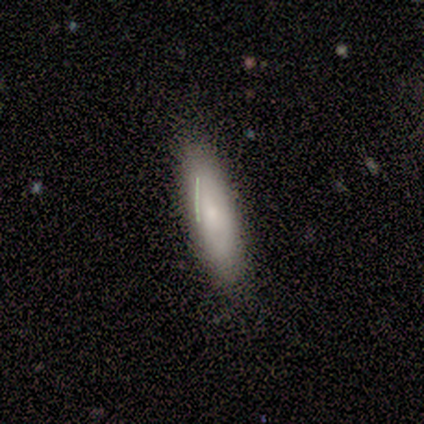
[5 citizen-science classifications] A smooth galaxy with no disk features (80%) that is cigar-shaped (75%).

Vote fractions:
- Smooth or featured? smooth: 80% / star or artifact: 20% / featured or disk: 0%
- How rounded? cigar-shaped: 75% / in between: 25% / round: 0%
- Merging? none: 50% / minor disturbance: 25% / merger: 25% / major disturbance: 0%